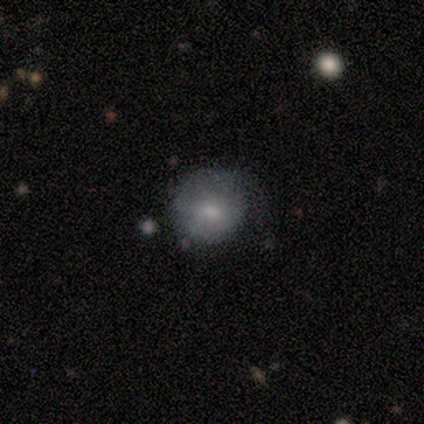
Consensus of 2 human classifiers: Smooth or featured?
  - smooth: 50% * (tied)
  - featured or disk: 50% * (tied)
  - star or artifact: 0%
How rounded?
  - round: 100% *
  - in between: 0%
  - cigar-shaped: 0%
Merging?
  - none: 50% * (tied)
  - minor disturbance: 50% * (tied)
  - major disturbance: 0%
  - merger: 0%